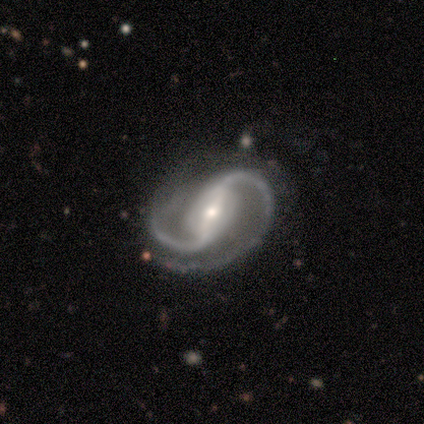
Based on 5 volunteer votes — featured or disk 100%, smooth 0%, star or artifact 0%. Down the decision tree: edge-on disk — no (100%); bar — strong (60%); spiral arms — yes (100%); spiral arm count — 2 (100%); spiral winding — medium (100%); bulge size — moderate (60%); merging — none (80%).